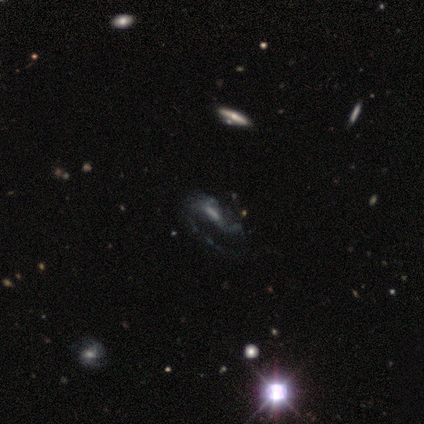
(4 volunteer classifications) This is clearly a featured or disk galaxy (100%). It is clearly not viewed edge-on (100%). Bar: likely no (75%). Spiral arm pattern: likely yes (75%). Spiral arm count: likely can't tell (67%). Spiral winding: likely loose (67%). Central bulge: possibly none (50%). Merging: possibly major disturbance (50%).